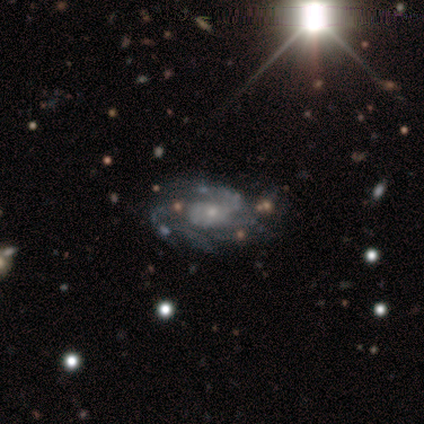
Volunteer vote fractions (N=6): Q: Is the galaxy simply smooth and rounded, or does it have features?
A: featured or disk — 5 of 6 (83%).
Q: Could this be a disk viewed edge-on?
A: no — 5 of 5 (100%).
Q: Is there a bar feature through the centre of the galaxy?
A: no — 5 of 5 (100%).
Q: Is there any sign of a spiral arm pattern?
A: yes — 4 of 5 (80%).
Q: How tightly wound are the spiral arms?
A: tight — 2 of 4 (50%).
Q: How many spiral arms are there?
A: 4 — 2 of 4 (50%).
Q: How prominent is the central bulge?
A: small — 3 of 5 (60%).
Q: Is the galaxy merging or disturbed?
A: none — 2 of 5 (40%, tied with minor disturbance).